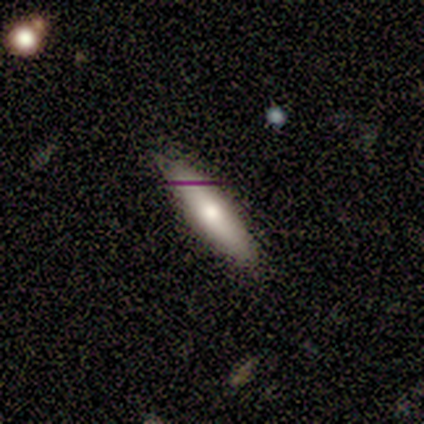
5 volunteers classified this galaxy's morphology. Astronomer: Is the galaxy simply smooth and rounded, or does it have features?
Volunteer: smooth — 100%.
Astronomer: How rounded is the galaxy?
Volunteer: cigar-shaped — 100%.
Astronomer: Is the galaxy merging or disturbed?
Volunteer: none — 100%.